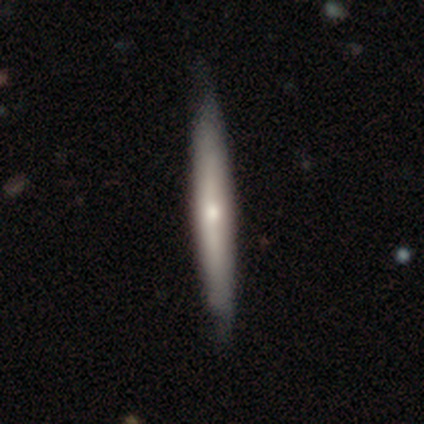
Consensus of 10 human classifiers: This appears to be a featured or disk galaxy (90%) viewed edge-on (100%) with a rounded central bulge (67%). Merging: none (90%).